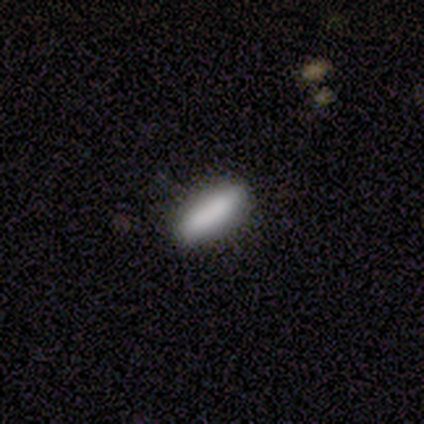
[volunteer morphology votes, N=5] smooth 80%, featured or disk 20%, star or artifact 0%. Down the decision tree: how rounded — in between (50%, tied with cigar-shaped); merging — none (80%).